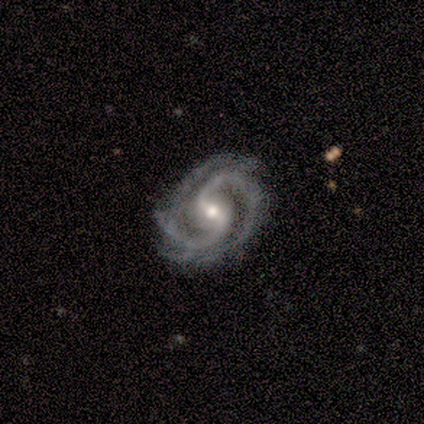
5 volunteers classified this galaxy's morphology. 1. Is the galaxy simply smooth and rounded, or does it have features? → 80% featured or disk, 20% star or artifact, 0% smooth.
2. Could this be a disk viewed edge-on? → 100% no, 0% yes.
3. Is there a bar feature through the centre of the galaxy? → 100% weak, 0% strong, 0% no.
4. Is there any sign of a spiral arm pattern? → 100% yes, 0% no.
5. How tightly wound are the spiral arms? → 50% medium, 25% tight, 25% loose.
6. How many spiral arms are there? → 100% 2, 0% 1, 0% 3, 0% 4, 0% more than 4, 0% can't tell.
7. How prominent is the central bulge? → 50% moderate (tied), 50% small (tied), 0% dominant, 0% large, 0% none.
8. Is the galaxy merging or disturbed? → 100% none, 0% minor disturbance, 0% major disturbance, 0% merger.